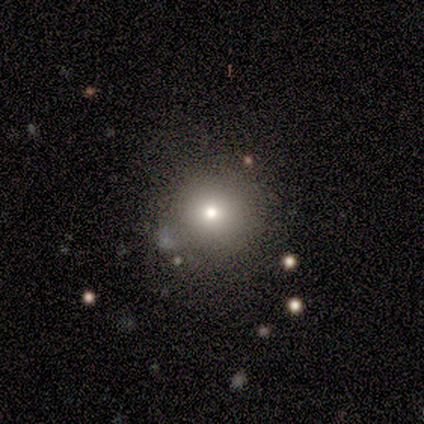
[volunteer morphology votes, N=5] Volunteers were most divided on "smooth or featured" (2-way tie): smooth: 40%, star or artifact: 40%, featured or disk: 20%; "merging" (3-way tie): none: 33%, minor disturbance: 33%, major disturbance: 33%, merger: 0%. More confident: how rounded — round (100%).